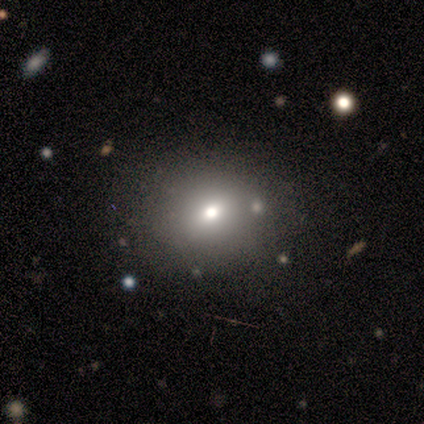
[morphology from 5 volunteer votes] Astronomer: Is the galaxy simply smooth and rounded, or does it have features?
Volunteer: smooth — 100%.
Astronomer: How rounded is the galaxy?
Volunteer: round — 80%.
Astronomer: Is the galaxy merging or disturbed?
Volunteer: none — 100%.